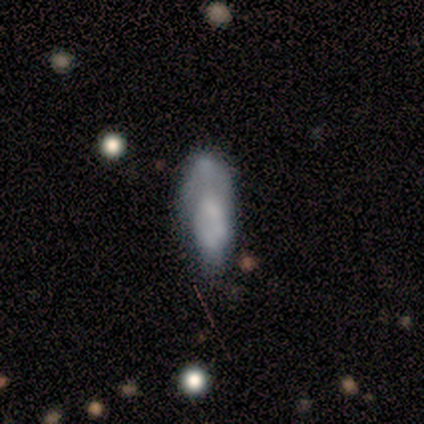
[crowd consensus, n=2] smooth 50% (tied), featured or disk 50% (tied), star or artifact 0%. Down the decision tree: how rounded — in between (100%); merging — minor disturbance (50%, tied with major disturbance).